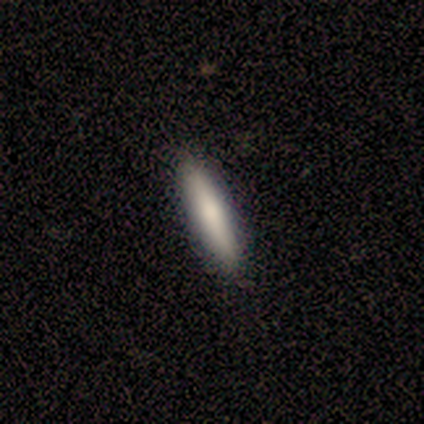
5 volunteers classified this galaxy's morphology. smooth_or_featured: smooth (p=1.00)
how_rounded: cigar-shaped (p=1.00)
merging: none (p=0.80) [alt: minor disturbance p=0.20]